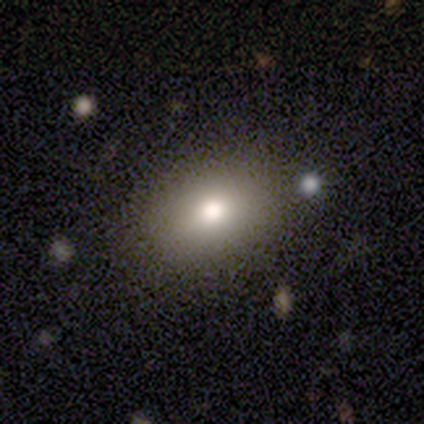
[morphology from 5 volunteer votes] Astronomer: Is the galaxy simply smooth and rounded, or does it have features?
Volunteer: smooth — 100%.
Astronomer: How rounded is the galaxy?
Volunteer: in between — 100%.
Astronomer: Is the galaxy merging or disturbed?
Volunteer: none — 80%.